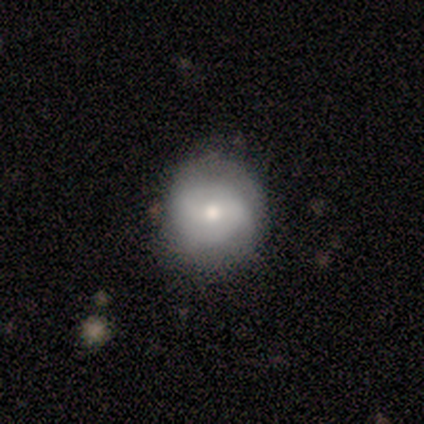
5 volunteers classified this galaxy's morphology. smooth_or_featured: smooth (p=0.60) [alt: featured or disk p=0.40]
how_rounded: round (p=1.00)
merging: none (p=0.60) [alt: minor disturbance p=0.40]